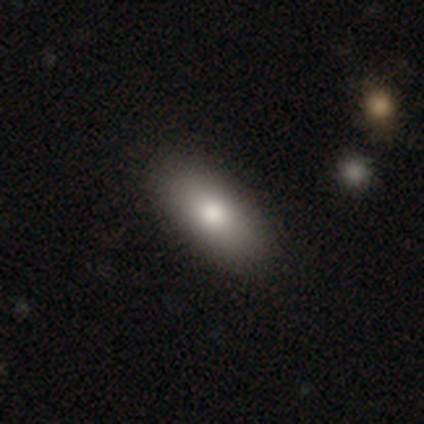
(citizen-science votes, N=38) smooth 84%, featured or disk 11%, star or artifact 5%. Down the decision tree: how rounded — in between (97%); merging — none (75%).